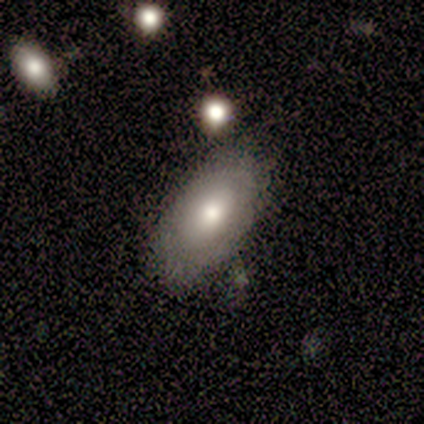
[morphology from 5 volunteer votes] Smooth or featured? 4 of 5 (80%) said smooth. How rounded? 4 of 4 (100%) said in between. Merging? 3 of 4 (75%) said none.